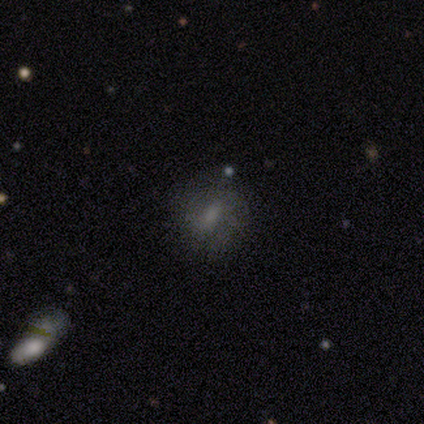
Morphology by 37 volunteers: Smooth or featured? smooth (57%)
How rounded? round (67%)
Merging? none (78%)